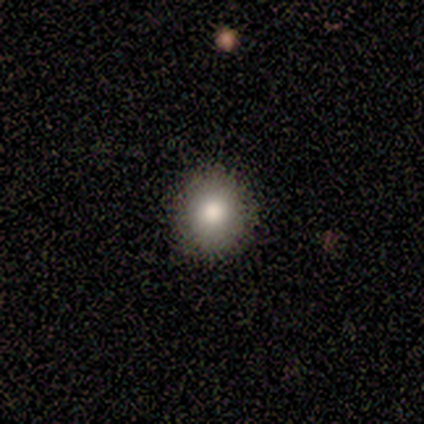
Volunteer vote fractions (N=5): smooth-or-featured: smooth: 80% | star or artifact: 20% | featured or disk: 0%
  how-rounded: round: 100% | in between: 0% | cigar-shaped: 0%
  merging: none: 100% | minor disturbance: 0% | major disturbance: 0% | merger: 0%